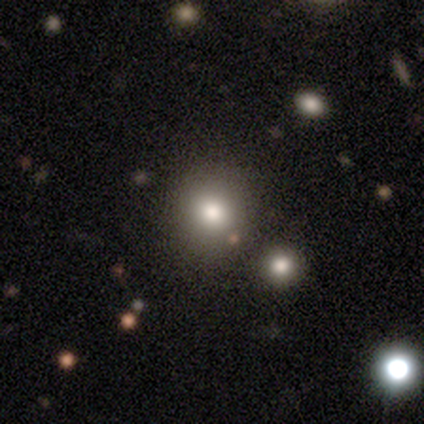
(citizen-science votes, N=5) This is clearly a smooth galaxy (100%). How rounded: clearly round (80%). Merging: clearly none (80%).